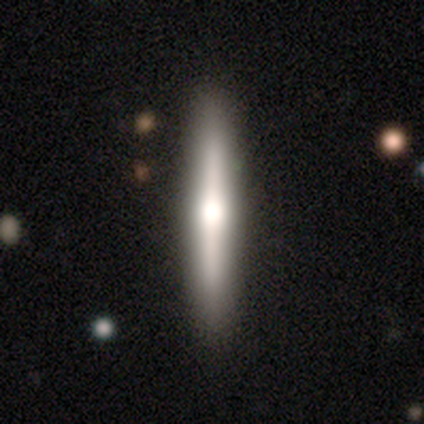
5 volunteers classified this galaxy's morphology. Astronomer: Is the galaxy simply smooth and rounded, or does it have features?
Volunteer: featured or disk — 60%.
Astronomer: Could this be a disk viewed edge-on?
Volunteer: yes — 100%.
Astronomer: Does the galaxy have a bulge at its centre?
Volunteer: rounded — 67%.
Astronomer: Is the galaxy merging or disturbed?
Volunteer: none — 75%.